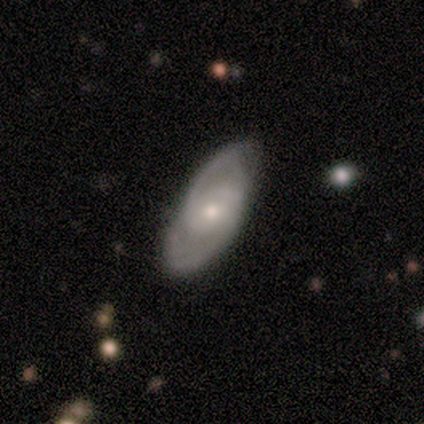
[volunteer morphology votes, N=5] Smooth or featured?
  - featured or disk: 100% *
  - smooth: 0%
  - star or artifact: 0%
Edge-on disk?
  - no: 60% *
  - yes: 40%
Bar?
  - no: 67% *
  - weak: 33%
  - strong: 0%
Spiral arms?
  - yes: 100% *
  - no: 0%
Spiral winding?
  - medium: 67% *
  - tight: 33%
  - loose: 0%
Spiral arm count?
  - 2: 100% *
  - 1: 0%
  - 3: 0%
  - 4: 0%
  - more than 4: 0%
  - can't tell: 0%
Bulge size?
  - small: 67% *
  - large: 33%
  - dominant: 0%
  - moderate: 0%
  - none: 0%
Merging?
  - none: 80% *
  - minor disturbance: 20%
  - major disturbance: 0%
  - merger: 0%